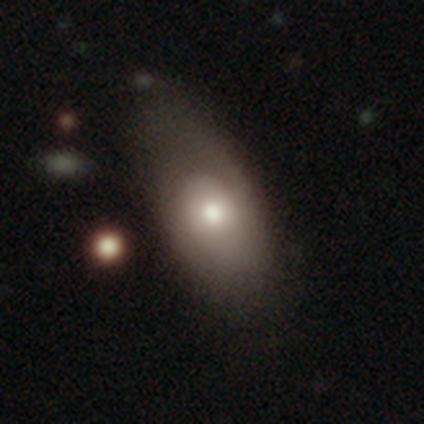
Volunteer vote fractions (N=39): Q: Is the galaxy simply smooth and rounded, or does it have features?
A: smooth — 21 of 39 (54%).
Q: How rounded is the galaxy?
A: in between — 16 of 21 (76%).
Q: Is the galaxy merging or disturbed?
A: none — 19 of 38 (50%).